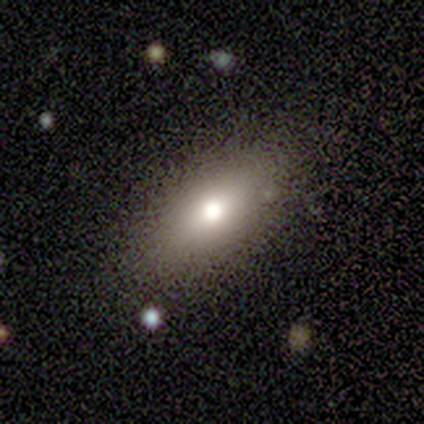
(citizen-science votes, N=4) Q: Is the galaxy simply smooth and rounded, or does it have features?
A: smooth — 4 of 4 (100%).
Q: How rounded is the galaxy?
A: in between — 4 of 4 (100%).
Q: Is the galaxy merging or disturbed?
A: none — 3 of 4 (75%).